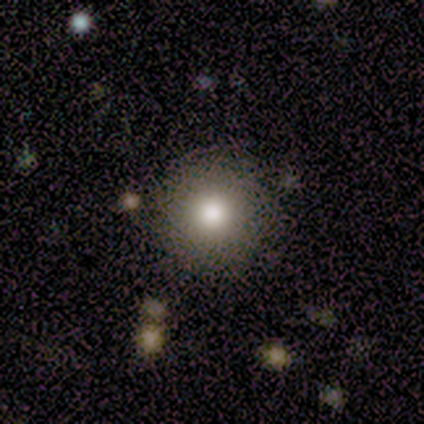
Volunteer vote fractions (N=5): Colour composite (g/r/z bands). It shows a smooth galaxy with no disk features (100%) that is round (100%). Merging: none (100%).